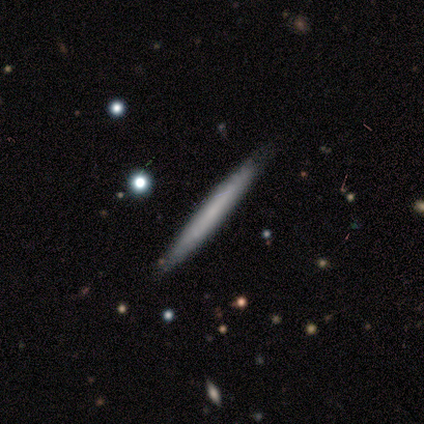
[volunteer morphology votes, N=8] Smooth or featured? smooth (62%)
How rounded? cigar-shaped (100%)
Merging? none (62%)